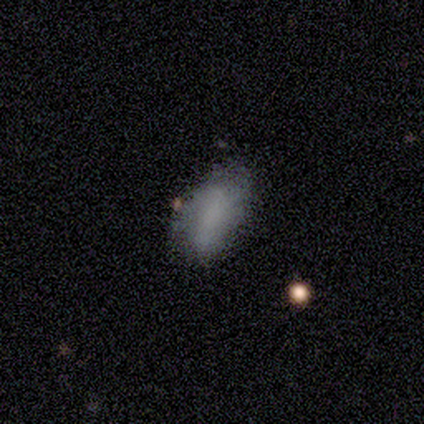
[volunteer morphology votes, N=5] Volunteers were most divided on "smooth or featured": smooth: 60%, featured or disk: 20%, star or artifact: 20%. More confident: how rounded — in between (100%); merging — none (75%).